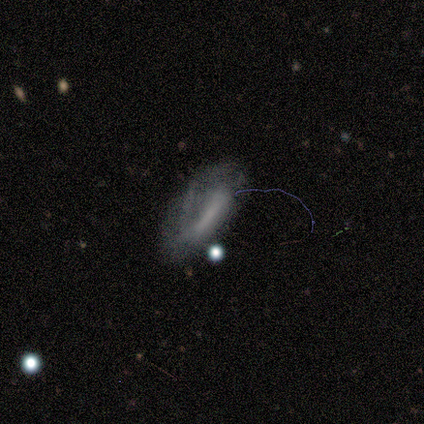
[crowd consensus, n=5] Overall: smooth (60%; featured or disk 20%). How rounded: in between (100%). Merging: major disturbance (50%; none 25%).